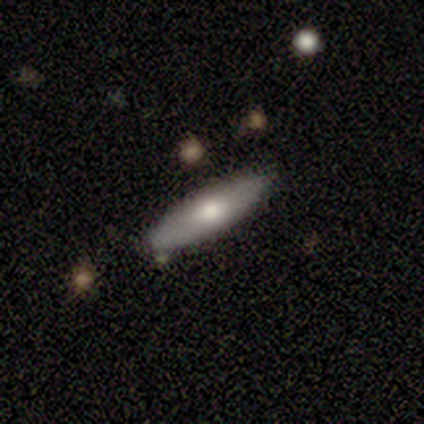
Volunteers were most divided on "smooth or featured": smooth: 60%, featured or disk: 40%, star or artifact: 0%. More confident: merging — none (80%); how rounded — cigar-shaped (67%).